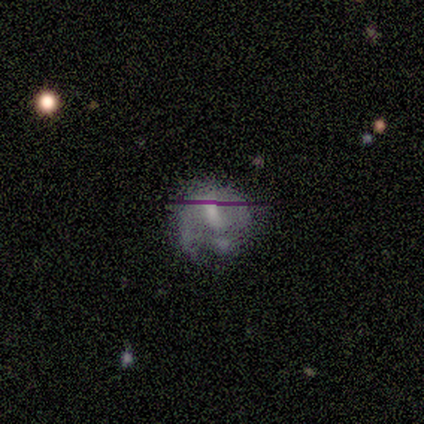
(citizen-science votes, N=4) This is likely a featured or disk galaxy (75%). It is likely not viewed edge-on (67%). Bar: possibly weak (50%, tied with no). Spiral arm pattern: possibly yes (50%, tied with no). Spiral arm count: clearly 2 (100%). Spiral winding: clearly medium (100%). Central bulge: possibly small (50%, tied with none). Merging: marginally none (33%, tied with minor disturbance and major disturbance).